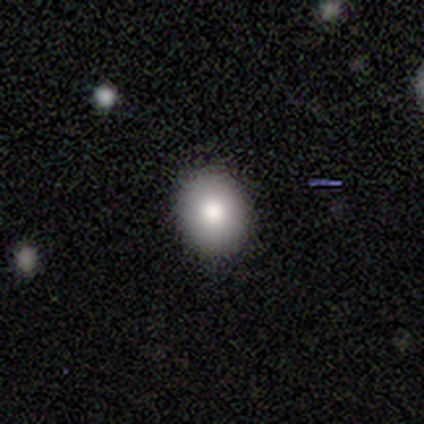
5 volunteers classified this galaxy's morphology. smooth_or_featured: smooth (p=0.80) [alt: featured or disk p=0.20]
how_rounded: round (p=0.50) [tied with: in between p=0.50]
merging: none (p=0.60) [alt: minor disturbance p=0.40]